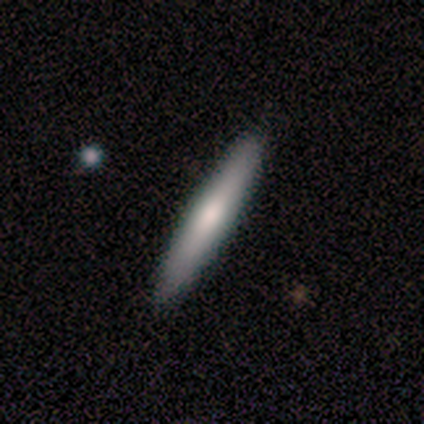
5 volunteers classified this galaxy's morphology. Smooth or featured? 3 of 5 (60%) said smooth. How rounded? 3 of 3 (100%) said cigar-shaped. Merging? 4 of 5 (80%) said none.